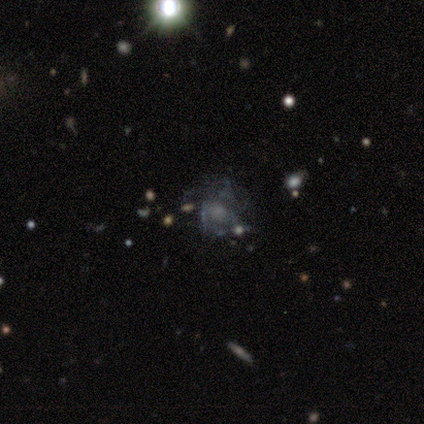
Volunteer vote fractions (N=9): This appears to be a featured or disk galaxy (44%) with no bar (75%), no spiral arms (75%) and a moderate central bulge (50%). Merging: none (33%, tied with major disturbance).